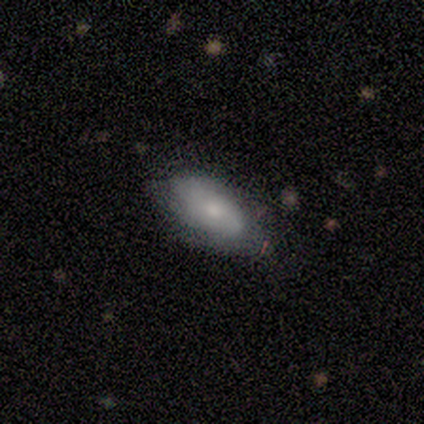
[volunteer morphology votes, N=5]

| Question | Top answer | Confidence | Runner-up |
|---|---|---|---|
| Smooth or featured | smooth | 80% | featured or disk (20%) |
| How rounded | in between | 100% | — |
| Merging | none | 60% | minor disturbance (40%) |